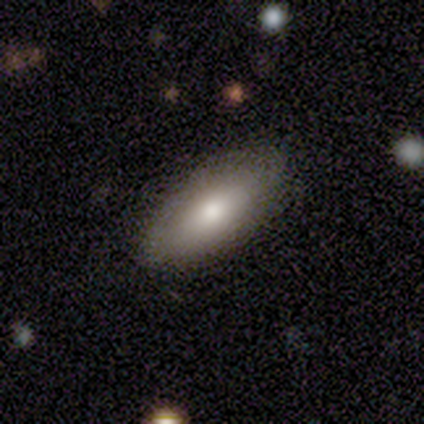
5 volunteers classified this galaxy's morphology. smooth_or_featured: smooth (p=0.80) [alt: featured or disk p=0.20]
how_rounded: in between (p=1.00)
merging: none (p=0.80) [alt: major disturbance p=0.20]